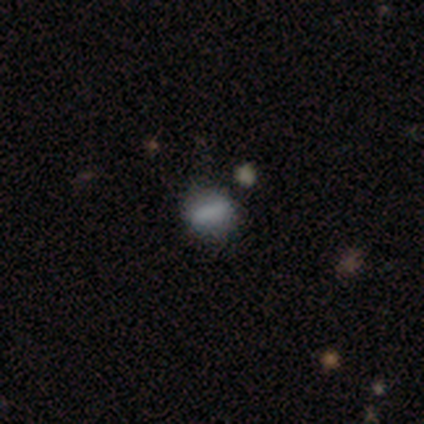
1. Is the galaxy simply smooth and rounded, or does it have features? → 60% smooth, 27% featured or disk, 13% star or artifact.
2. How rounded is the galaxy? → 44% in between, 33% round, 22% cigar-shaped.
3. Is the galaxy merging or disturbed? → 92% none, 8% minor disturbance, 0% major disturbance, 0% merger.